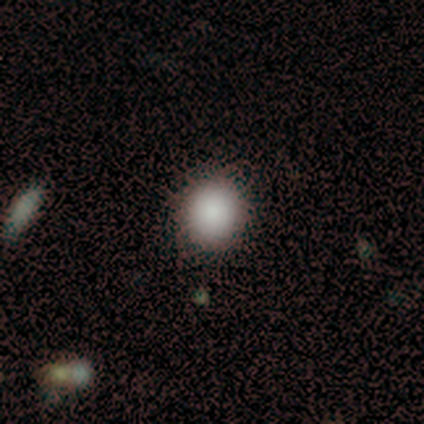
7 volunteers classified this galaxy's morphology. Smooth or featured?
  - smooth: 71% *
  - featured or disk: 14%
  - star or artifact: 14%
How rounded?
  - round: 100% *
  - in between: 0%
  - cigar-shaped: 0%
Merging?
  - none: 100% *
  - minor disturbance: 0%
  - major disturbance: 0%
  - merger: 0%